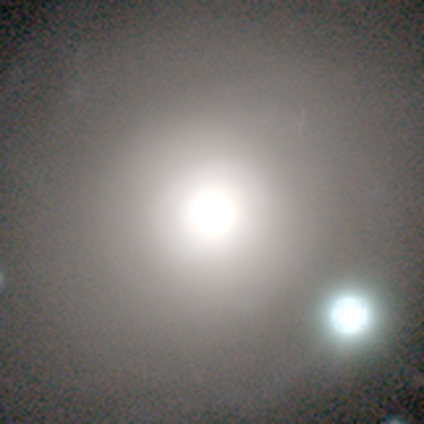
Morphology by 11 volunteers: Smooth or featured? 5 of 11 (45%, tied with star or artifact) said smooth. How rounded? 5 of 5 (100%) said round. Merging? 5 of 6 (83%) said none.